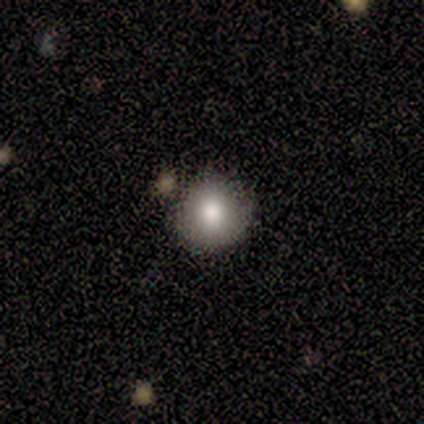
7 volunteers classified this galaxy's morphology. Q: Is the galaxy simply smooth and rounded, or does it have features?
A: smooth — 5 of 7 (71%).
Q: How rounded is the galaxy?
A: round — 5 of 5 (100%).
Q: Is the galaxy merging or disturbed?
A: none — 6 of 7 (86%).